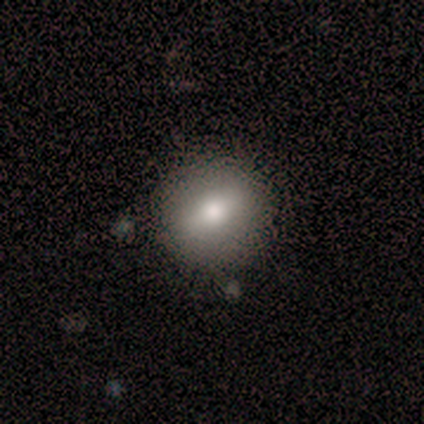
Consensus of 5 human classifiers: This is clearly a smooth galaxy (80%). How rounded: likely round (75%). Merging: likely none (60%).